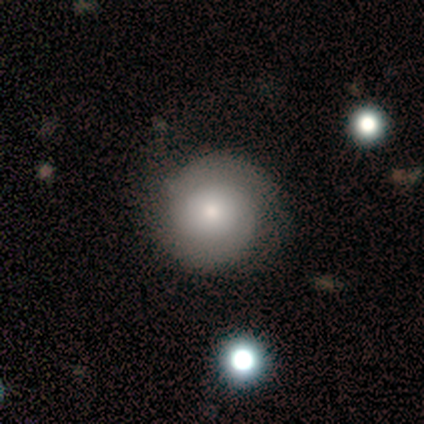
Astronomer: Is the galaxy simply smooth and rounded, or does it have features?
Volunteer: smooth — 100%.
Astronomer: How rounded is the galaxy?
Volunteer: round — 80%.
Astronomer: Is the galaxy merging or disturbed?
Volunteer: none — 60%.